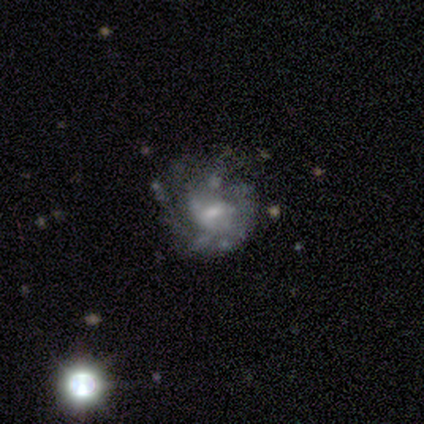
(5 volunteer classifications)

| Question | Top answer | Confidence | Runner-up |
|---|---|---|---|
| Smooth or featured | featured or disk | 100% | — |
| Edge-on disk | no | 100% | — |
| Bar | weak | 60% | no (40%) |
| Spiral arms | yes | 100% | — |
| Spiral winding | medium | 60% | tight (40%) |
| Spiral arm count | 2 | 40% | tied: can't tell (40%) |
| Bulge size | small | 80% | moderate (20%) |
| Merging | none | 40% | tied: minor disturbance (40%) |